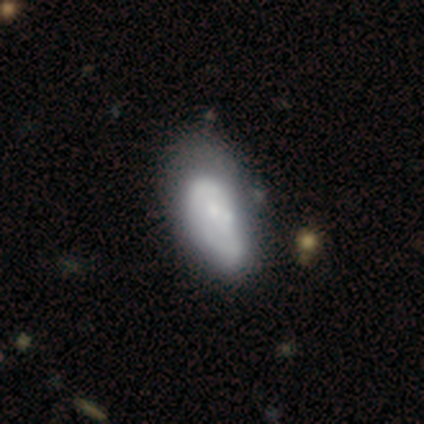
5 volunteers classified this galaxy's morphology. Smooth or featured?
  - smooth: 40% * (tied)
  - featured or disk: 40% * (tied)
  - star or artifact: 20%
How rounded?
  - in between: 100% *
  - round: 0%
  - cigar-shaped: 0%
Merging?
  - none: 75% *
  - merger: 25%
  - minor disturbance: 0%
  - major disturbance: 0%